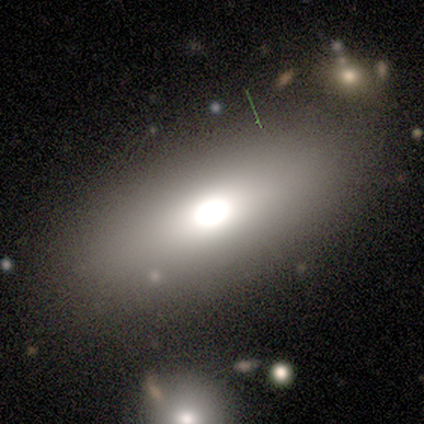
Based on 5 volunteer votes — Volunteers were most divided on "smooth or featured": smooth: 80%, featured or disk: 20%, star or artifact: 0%. More confident: how rounded — in between (100%); merging — none (80%).